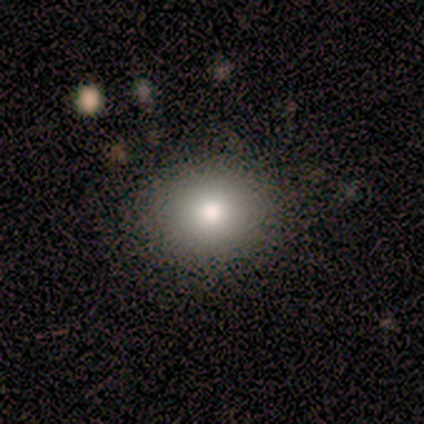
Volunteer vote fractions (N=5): Q: Smooth or featured?
A: smooth (80%); runner-up: star or artifact (20%)
Q: How rounded?
A: round (75%); runner-up: in between (25%)
Q: Merging?
A: none (75%); runner-up: minor disturbance (25%)